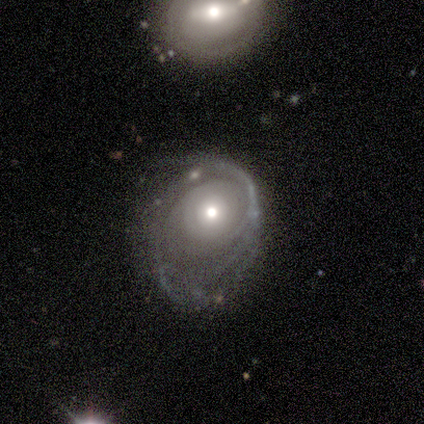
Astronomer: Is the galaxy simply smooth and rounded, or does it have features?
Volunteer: featured or disk — 75%.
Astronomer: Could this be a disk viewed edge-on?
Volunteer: no — 100%.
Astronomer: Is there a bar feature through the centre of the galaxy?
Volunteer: no — 100%.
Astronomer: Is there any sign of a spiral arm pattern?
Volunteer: yes — 100%.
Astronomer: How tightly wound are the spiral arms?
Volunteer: tight — 100%.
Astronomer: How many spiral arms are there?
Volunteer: can't tell — 67%.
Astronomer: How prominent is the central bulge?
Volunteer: small — 67%.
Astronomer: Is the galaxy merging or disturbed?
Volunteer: major disturbance — 75%.